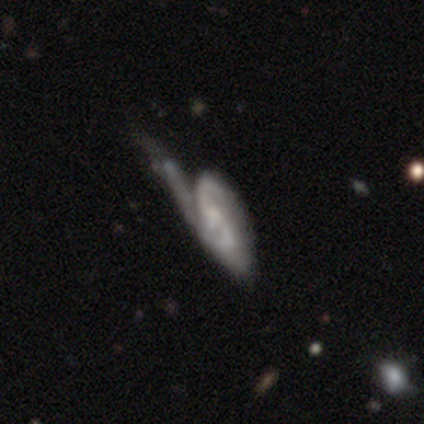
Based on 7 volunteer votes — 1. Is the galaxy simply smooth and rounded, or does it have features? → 71% featured or disk, 29% smooth, 0% star or artifact.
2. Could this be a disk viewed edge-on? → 100% no, 0% yes.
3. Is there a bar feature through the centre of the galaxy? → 80% no, 20% weak, 0% strong.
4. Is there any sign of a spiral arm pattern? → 80% yes, 20% no.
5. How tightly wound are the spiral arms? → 50% tight, 25% medium, 25% loose.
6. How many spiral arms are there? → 75% 2, 25% can't tell, 0% 1, 0% 3, 0% 4, 0% more than 4.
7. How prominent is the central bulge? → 60% small, 20% dominant, 20% moderate, 0% large, 0% none.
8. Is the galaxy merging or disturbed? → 71% major disturbance, 29% minor disturbance, 0% none, 0% merger.